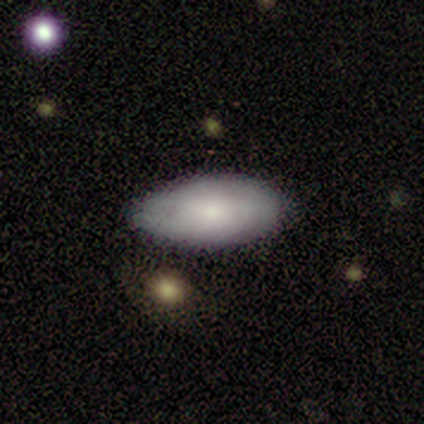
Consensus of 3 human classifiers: smooth_or_featured: smooth (p=0.67) [alt: featured or disk p=0.33]
how_rounded: in between (p=1.00)
merging: none (p=1.00)